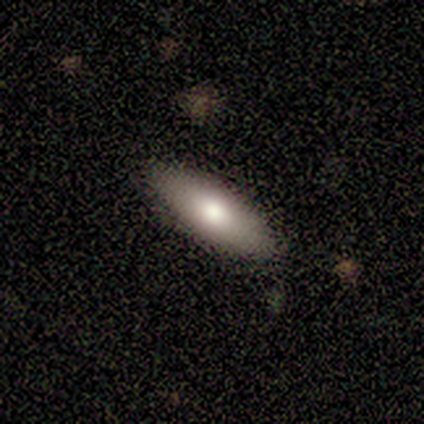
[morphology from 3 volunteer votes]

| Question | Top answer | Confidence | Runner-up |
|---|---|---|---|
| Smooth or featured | smooth | 67% | featured or disk (33%) |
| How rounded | in between | 50% | tied: cigar-shaped (50%) |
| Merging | none | 67% | minor disturbance (33%) |